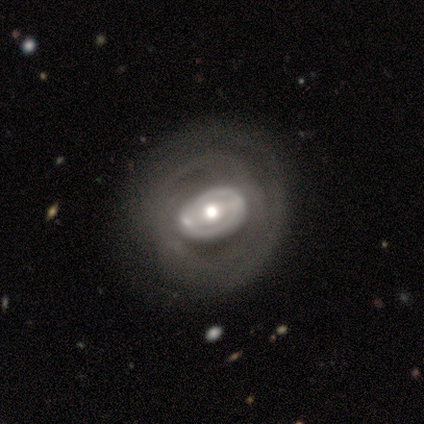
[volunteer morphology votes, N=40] type=featured or disk (92%); edge-on=no (97%); bar=no (47%); spiral arms=no (53%); bulge=moderate (72%); merging=none (40%).